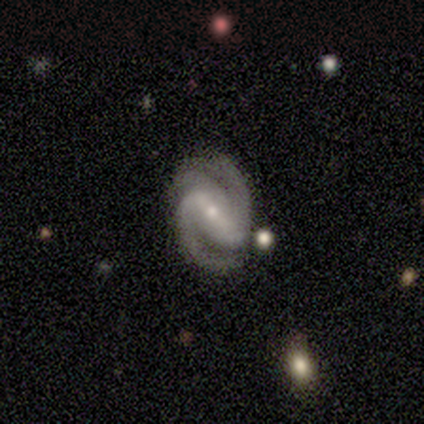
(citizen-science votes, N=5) Smooth or featured: featured or disk — 100%
Edge-on disk: no — 80% (yes — 20%)
Bar: strong — 75% (weak — 25%)
Spiral arms: yes — 100%
Spiral winding: tight — 50% (tied with medium — 50%)
Spiral arm count: 2 — 75% (3 — 25%)
Bulge size: small — 75% (large — 25%)
Merging: none — 80% (minor disturbance — 20%)